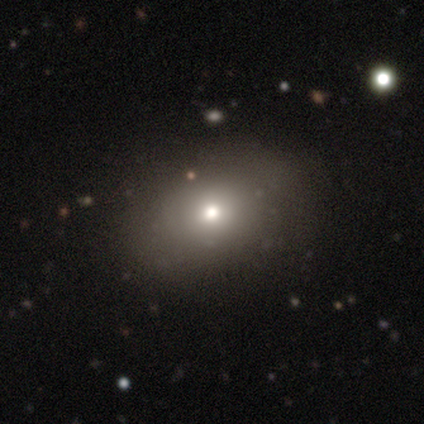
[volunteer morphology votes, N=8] smooth-or-featured: smooth: 100% | featured or disk: 0% | star or artifact: 0%
  how-rounded: in between: 75% | round: 12% | cigar-shaped: 12%
  merging: none: 75% | minor disturbance: 12% | major disturbance: 12% | merger: 0%